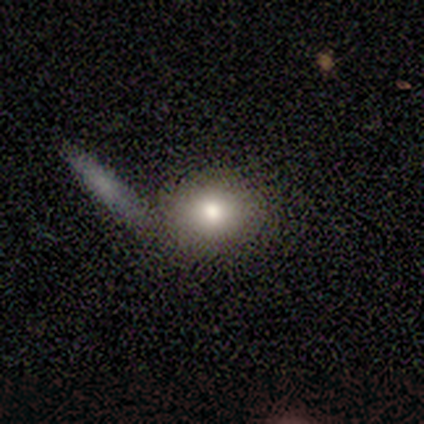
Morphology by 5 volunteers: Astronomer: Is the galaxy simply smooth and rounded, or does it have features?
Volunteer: smooth — 80%.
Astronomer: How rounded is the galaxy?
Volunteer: round — 75%.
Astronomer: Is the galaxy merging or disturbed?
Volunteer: none — 60% (runner-up: merger, 40%).